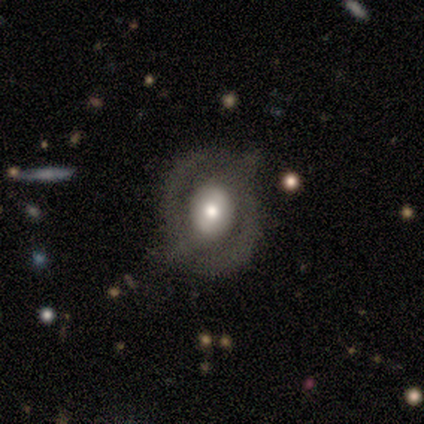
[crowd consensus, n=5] Morphology: type=featured or disk (80%); edge-on=no (100%); bar=no (75%); spiral arms=no (100%); bulge=moderate (75%); merging=none (60%).